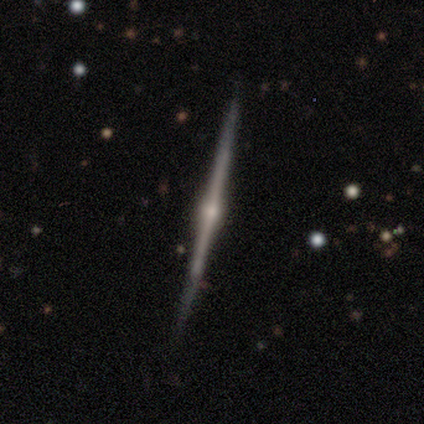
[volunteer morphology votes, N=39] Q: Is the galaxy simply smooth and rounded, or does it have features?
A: featured or disk — 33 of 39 (85%).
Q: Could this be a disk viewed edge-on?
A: yes — 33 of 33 (100%).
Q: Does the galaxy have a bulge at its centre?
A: rounded — 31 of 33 (94%).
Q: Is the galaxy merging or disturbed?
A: none — 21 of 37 (57%).